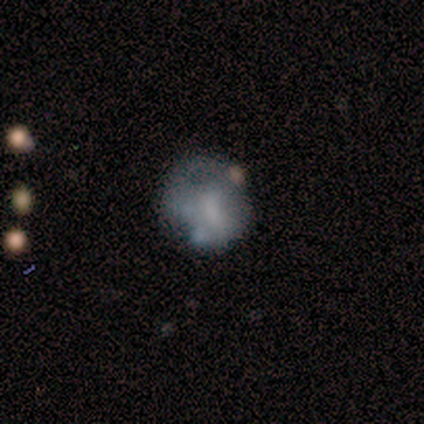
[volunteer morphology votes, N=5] Smooth or featured? 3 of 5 (60%) said smooth. How rounded? 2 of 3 (67%) said in between. Merging? 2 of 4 (50%) said major disturbance.